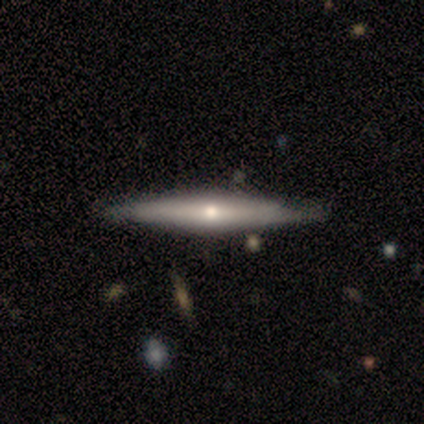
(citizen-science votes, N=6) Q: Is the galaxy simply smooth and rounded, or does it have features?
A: smooth — 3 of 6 (50%, tied with featured or disk).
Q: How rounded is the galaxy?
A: cigar-shaped — 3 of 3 (100%).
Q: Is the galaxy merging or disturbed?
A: none — 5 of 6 (83%).